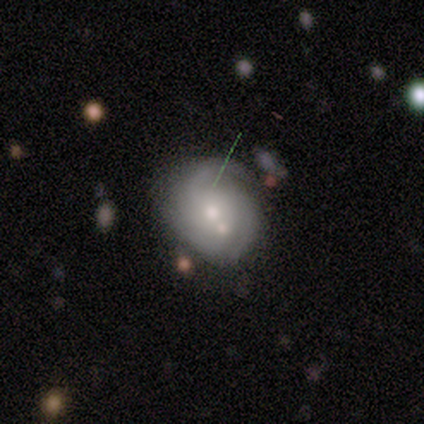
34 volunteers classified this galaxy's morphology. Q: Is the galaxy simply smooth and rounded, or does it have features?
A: featured or disk — 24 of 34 (71%).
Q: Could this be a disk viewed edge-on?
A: no — 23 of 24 (96%).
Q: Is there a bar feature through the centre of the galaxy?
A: no — 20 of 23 (87%).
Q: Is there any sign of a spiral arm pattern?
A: yes — 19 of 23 (83%).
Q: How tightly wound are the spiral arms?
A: tight — 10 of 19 (53%).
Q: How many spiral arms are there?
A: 2 — 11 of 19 (58%).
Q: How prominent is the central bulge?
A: moderate — 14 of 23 (61%).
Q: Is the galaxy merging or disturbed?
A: none — 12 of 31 (39%).